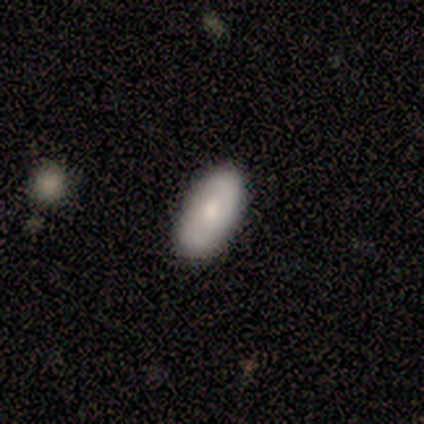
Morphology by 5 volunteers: A smooth galaxy with no disk features (60%) that is in between round and cigar-shaped (100%).

Vote fractions:
- Smooth or featured? smooth: 60% / featured or disk: 40% / star or artifact: 0%
- How rounded? in between: 100% / round: 0% / cigar-shaped: 0%
- Merging? none: 80% / minor disturbance: 20% / major disturbance: 0% / merger: 0%